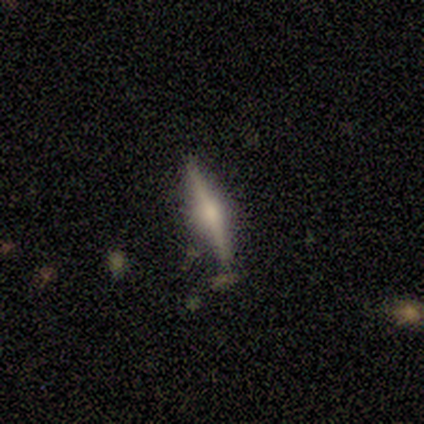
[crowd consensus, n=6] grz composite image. It shows a featured or disk galaxy (67%) viewed edge-on (75%) with a rounded central bulge (100%). Merging: none (75%).